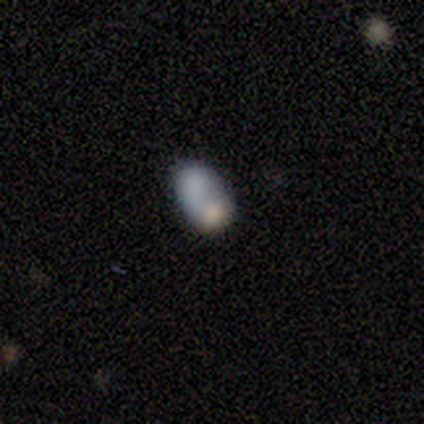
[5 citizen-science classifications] Volunteers were most divided on "how rounded": in between: 80%, round: 20%, cigar-shaped: 0%. More confident: smooth or featured — smooth (100%); merging — merger (100%).